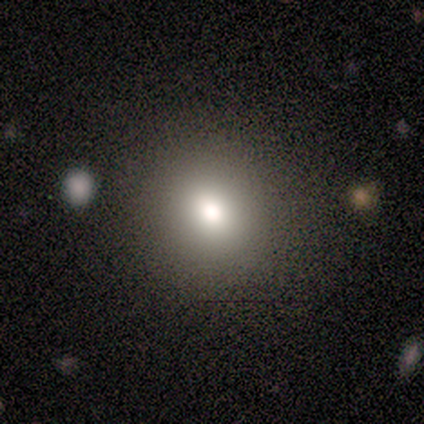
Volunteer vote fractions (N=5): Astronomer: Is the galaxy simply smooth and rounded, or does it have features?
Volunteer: smooth — 100%.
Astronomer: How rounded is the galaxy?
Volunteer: round — 60% (runner-up: in between, 40%).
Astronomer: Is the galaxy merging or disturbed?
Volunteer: none — 80%.